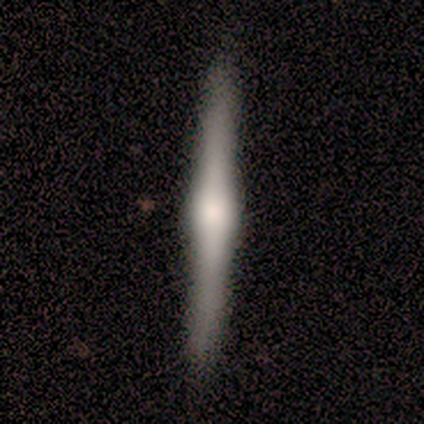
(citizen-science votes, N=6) Smooth or featured?
  - featured or disk: 67% *
  - smooth: 33%
  - star or artifact: 0%
Edge-on disk?
  - yes: 100% *
  - no: 0%
Edge-on bulge?
  - rounded: 75% *
  - none: 25%
  - boxy: 0%
Merging?
  - none: 83% *
  - minor disturbance: 17%
  - major disturbance: 0%
  - merger: 0%